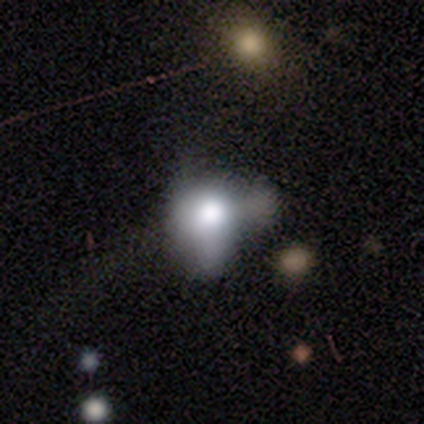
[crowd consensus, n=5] Smooth or featured? 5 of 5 (100%) said smooth. How rounded? 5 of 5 (100%) said in between. Merging? 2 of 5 (40%, tied with major disturbance) said minor disturbance.